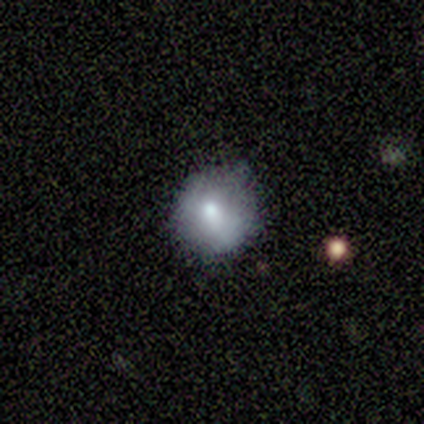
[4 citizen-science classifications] A smooth galaxy with no disk features (75%) that is round (100%).

Vote fractions:
- Smooth or featured? smooth: 75% / featured or disk: 25% / star or artifact: 0%
- How rounded? round: 100% / in between: 0% / cigar-shaped: 0%
- Merging? none: 75% / minor disturbance: 25% / major disturbance: 0% / merger: 0%